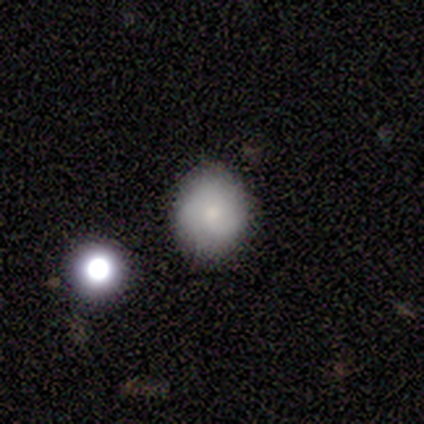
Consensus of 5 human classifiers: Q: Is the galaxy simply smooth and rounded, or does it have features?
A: smooth — 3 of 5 (60%).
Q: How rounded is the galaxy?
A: round — 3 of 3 (100%).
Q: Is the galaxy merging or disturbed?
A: none — 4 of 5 (80%).